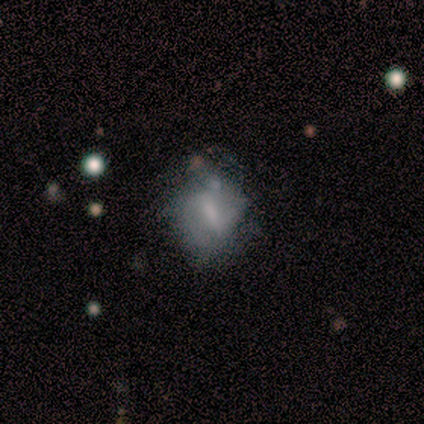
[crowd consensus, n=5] Overall: featured or disk (80%). Edge-on disk: no (100%). Bar: weak (75%). Spiral arms: no (75%). Bulge size: moderate (50%, tied with none). Merging: minor disturbance (60%; none 40%).